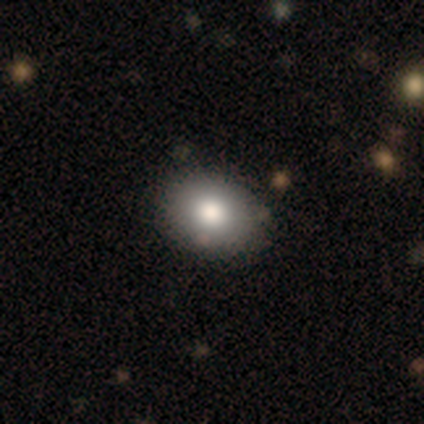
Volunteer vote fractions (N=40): Morphology: type=smooth (72%); roundness=in between (59%); merging=none (92%).